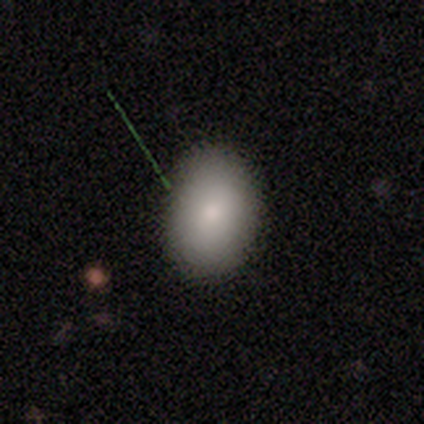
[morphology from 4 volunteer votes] A smooth galaxy with no disk features (100%) that is in between round and cigar-shaped (75%).

Vote fractions:
- Smooth or featured? smooth: 100% / featured or disk: 0% / star or artifact: 0%
- How rounded? in between: 75% / round: 25% / cigar-shaped: 0%
- Merging? none: 100% / minor disturbance: 0% / major disturbance: 0% / merger: 0%